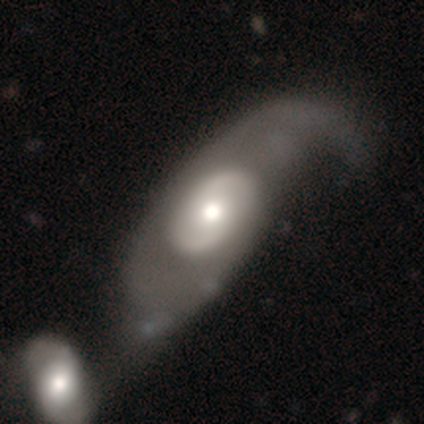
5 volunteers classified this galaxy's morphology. A featured or disk galaxy (80%) viewed edge-on (50%, tied with no) with a rounded central bulge (100%).

Vote fractions:
- Smooth or featured? featured or disk: 80% / smooth: 20% / star or artifact: 0%
- Edge-on disk? yes: 50% (tied) / no: 50% (tied)
- Edge-on bulge? rounded: 100% / boxy: 0% / none: 0%
- Merging? none: 40% (tied) / major disturbance: 40% (tied) / minor disturbance: 20% / merger: 0%